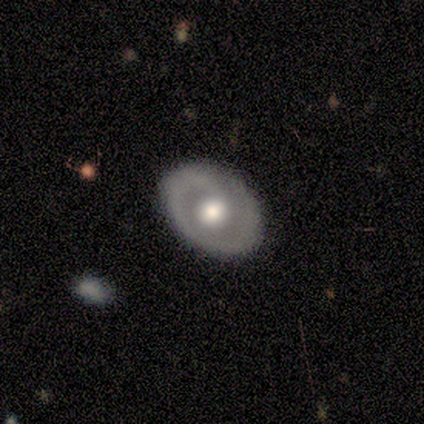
Volunteers were most divided on "spiral arm count" (2-way tie): 1: 50%, 2: 50%, 3: 0%, 4: 0%, more than 4: 0%, can't tell: 0%. More confident: merging — none (88%); edge-on disk — no (83%); spiral arms — yes (80%); bulge size — moderate (80%); smooth or featured — featured or disk (75%); spiral winding — tight (75%); bar — no (60%).